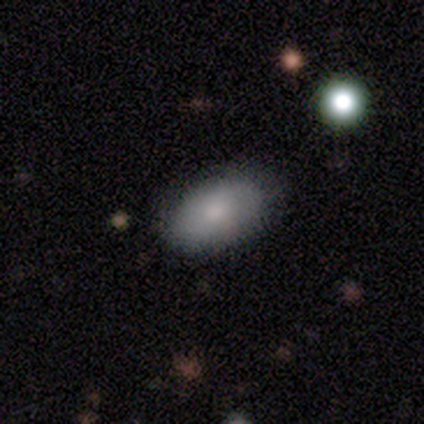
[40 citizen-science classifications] smooth-or-featured: smooth: 78% | featured or disk: 20% | star or artifact: 2%
  how-rounded: in between: 94% | cigar-shaped: 6% | round: 0%
  merging: none: 51% | merger: 10% | minor disturbance: 5% | major disturbance: 0%